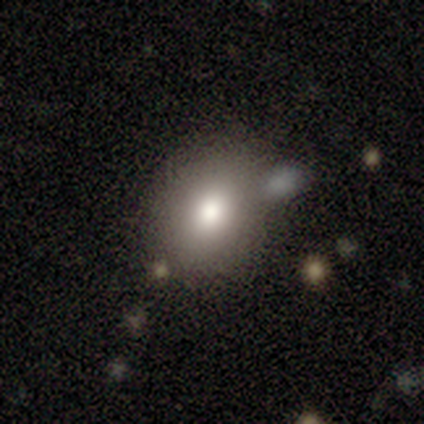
smooth 100%, featured or disk 0%, star or artifact 0%. Down the decision tree: how rounded — in between (75%); merging — none (100%).